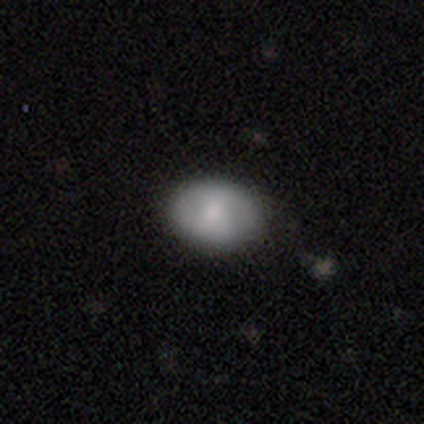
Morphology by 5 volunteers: Smooth or featured? 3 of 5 (60%) said featured or disk. Edge-on disk? 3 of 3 (100%) said no. Bar? 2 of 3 (67%) said weak. Spiral arms? 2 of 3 (67%) said yes. Spiral winding? 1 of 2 (50%, tied with medium) said tight. Spiral arm count? 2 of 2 (100%) said 2. Bulge size? 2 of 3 (67%) said moderate. Merging? 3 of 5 (60%) said none.